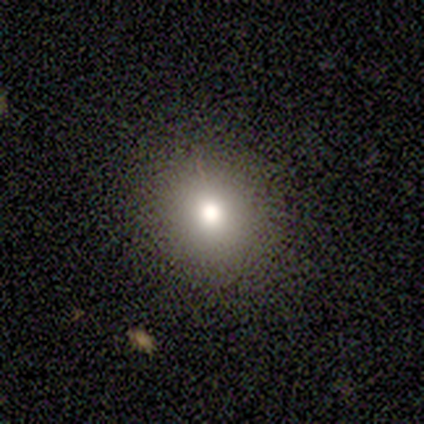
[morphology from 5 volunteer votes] Smooth or featured: smooth — 80% (star or artifact — 20%)
How rounded: round — 100%
Merging: none — 100%